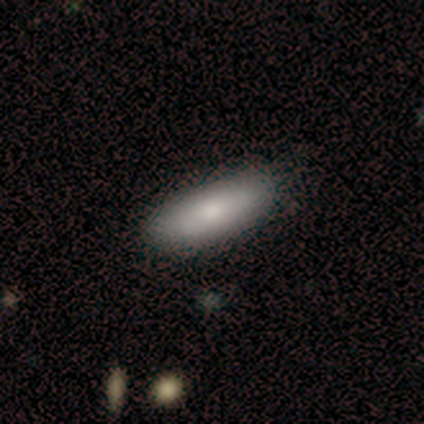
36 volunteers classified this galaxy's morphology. smooth-or-featured: smooth: 75% | featured or disk: 22% | star or artifact: 3%
  how-rounded: in between: 67% | cigar-shaped: 33% | round: 0%
  merging: none: 66% | minor disturbance: 6% | merger: 6% | major disturbance: 0%